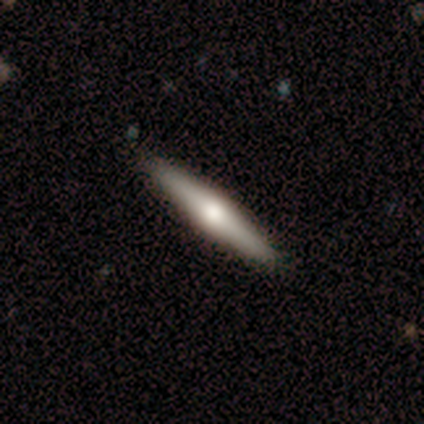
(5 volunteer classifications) Overall: smooth (60%; featured or disk 40%). How rounded: cigar-shaped (100%). Merging: none (80%).